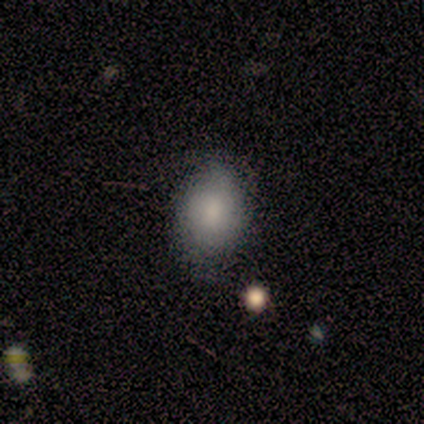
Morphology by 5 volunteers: This appears to be a smooth galaxy with no disk features (60%) that is in between round and cigar-shaped (67%). Merging: none (80%).